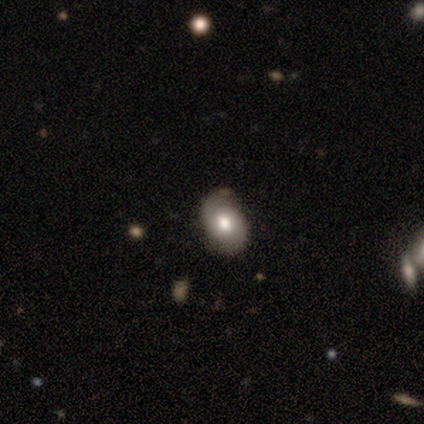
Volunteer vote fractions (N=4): smooth 50%, featured or disk 25%, star or artifact 25%. Down the decision tree: how rounded — in between (50%, tied with cigar-shaped); merging — minor disturbance (67%).